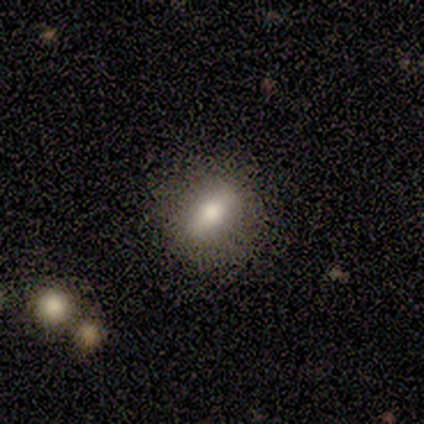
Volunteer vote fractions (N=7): A smooth galaxy with no disk features (86%) that is in between round and cigar-shaped (67%). Merging: none (86%).